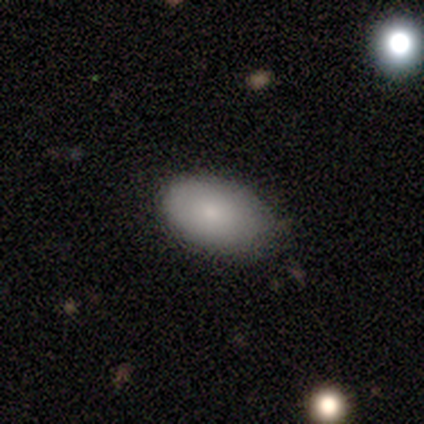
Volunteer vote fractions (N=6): Smooth or featured: smooth — 83% (featured or disk — 17%)
How rounded: in between — 80% (round — 20%)
Merging: none — 83% (minor disturbance — 17%)